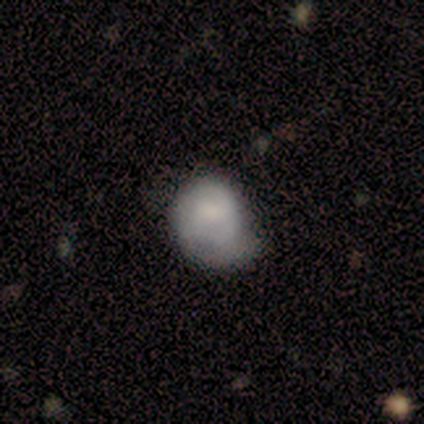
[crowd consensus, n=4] Smooth or featured?
  - smooth: 75% *
  - star or artifact: 25%
  - featured or disk: 0%
How rounded?
  - round: 67% *
  - in between: 33%
  - cigar-shaped: 0%
Merging?
  - minor disturbance: 67% *
  - none: 33%
  - major disturbance: 0%
  - merger: 0%